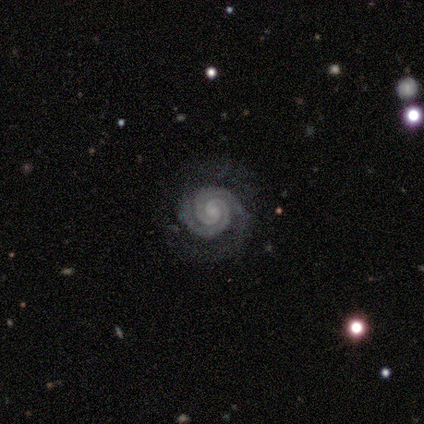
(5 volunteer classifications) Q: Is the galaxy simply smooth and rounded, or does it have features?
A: featured or disk — 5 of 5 (100%).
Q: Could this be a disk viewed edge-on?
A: no — 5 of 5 (100%).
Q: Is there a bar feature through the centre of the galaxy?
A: weak — 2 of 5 (40%, tied with no).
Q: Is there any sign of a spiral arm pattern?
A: yes — 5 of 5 (100%).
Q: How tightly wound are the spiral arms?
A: tight — 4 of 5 (80%).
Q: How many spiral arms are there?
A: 2 — 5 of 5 (100%).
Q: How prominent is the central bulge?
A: small — 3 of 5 (60%).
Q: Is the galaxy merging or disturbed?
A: none — 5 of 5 (100%).